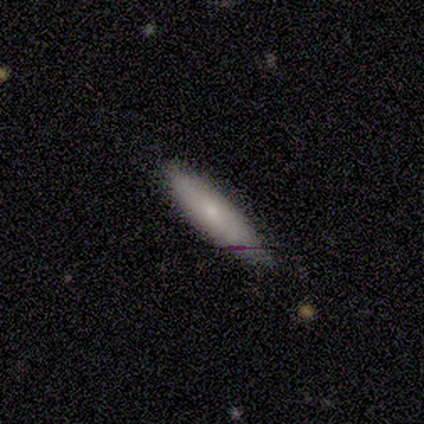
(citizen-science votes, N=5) A smooth galaxy with no disk features (80%) that is cigar-shaped (100%). Merging: none (80%).